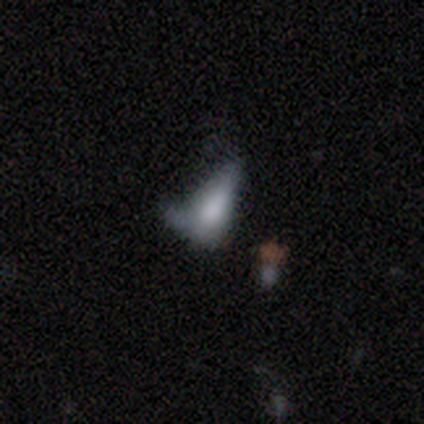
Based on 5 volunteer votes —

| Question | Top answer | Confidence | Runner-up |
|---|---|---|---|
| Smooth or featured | smooth | 80% | featured or disk (20%) |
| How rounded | in between | 100% | — |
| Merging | major disturbance | 60% | minor disturbance (40%) |